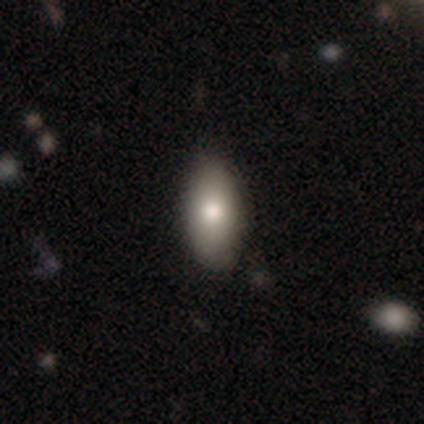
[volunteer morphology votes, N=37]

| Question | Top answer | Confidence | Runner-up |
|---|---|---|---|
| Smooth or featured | smooth | 84% | featured or disk (8%) |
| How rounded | in between | 84% | cigar-shaped (10%) |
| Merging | none | 85% | minor disturbance (12%) |